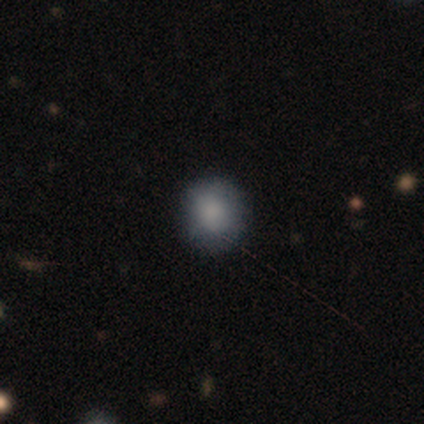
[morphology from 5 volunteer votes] smooth_or_featured: smooth (p=1.00)
how_rounded: round (p=0.60) [alt: in between p=0.40]
merging: none (p=1.00)